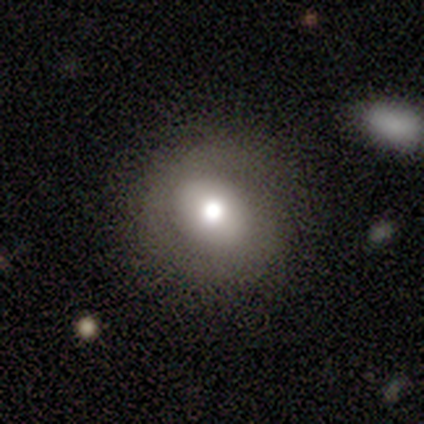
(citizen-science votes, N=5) smooth-or-featured: smooth: 40% (tied) | star or artifact: 40% (tied) | featured or disk: 20%
  how-rounded: round: 100% | in between: 0% | cigar-shaped: 0%
  merging: none: 67% | minor disturbance: 33% | major disturbance: 0% | merger: 0%